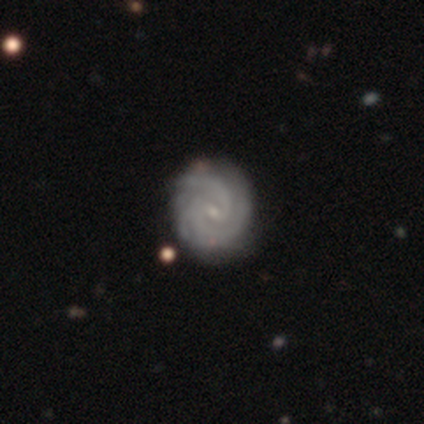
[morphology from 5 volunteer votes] Overall: featured or disk (100%). Edge-on disk: no (100%). Bar: weak (100%). Spiral arms: yes (100%). Spiral arm count: 2 (80%). Spiral winding: tight (80%). Bulge size: small (100%). Merging: none (80%).